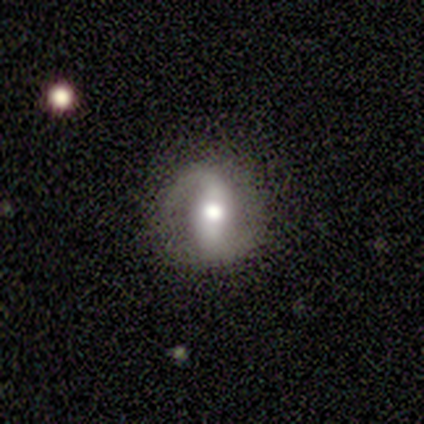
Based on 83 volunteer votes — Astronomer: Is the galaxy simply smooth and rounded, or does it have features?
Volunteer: featured or disk — 82%.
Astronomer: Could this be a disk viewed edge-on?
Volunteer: no — 97%.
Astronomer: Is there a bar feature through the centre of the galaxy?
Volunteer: strong — 59%.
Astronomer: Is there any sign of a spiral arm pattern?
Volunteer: yes — 86%.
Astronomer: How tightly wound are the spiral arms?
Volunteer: medium — 37% (runner-up: loose, 33%).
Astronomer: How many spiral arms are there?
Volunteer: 2 — 95%.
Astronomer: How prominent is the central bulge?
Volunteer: moderate — 61%.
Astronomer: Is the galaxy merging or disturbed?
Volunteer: none — 86%.